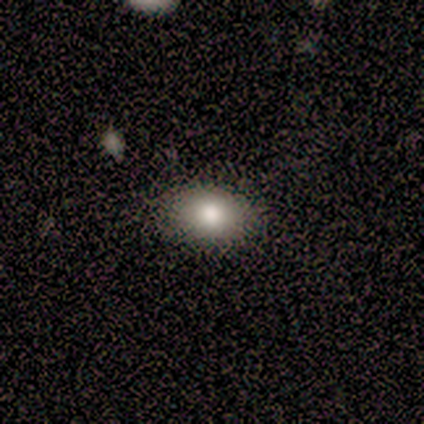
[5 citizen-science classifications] Smooth or featured?
  - smooth: 100% *
  - featured or disk: 0%
  - star or artifact: 0%
How rounded?
  - in between: 80% *
  - round: 20%
  - cigar-shaped: 0%
Merging?
  - none: 80% *
  - minor disturbance: 20%
  - major disturbance: 0%
  - merger: 0%